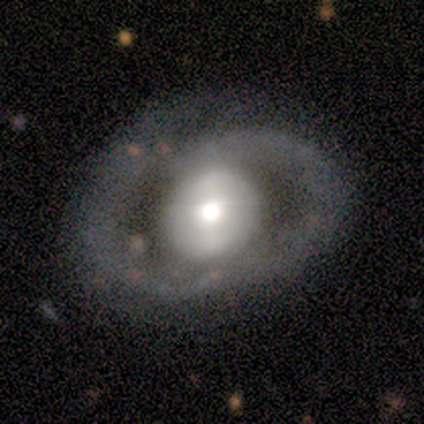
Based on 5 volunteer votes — Q: Smooth or featured?
A: featured or disk (80%); runner-up: smooth (20%)
Q: Edge-on disk?
A: no (100%)
Q: Bar?
A: no (75%); runner-up: strong (25%)
Q: Spiral arms?
A: yes (75%); runner-up: no (25%)
Q: Spiral winding?
A: tight (33%); tied with: medium (33%); loose (33%)
Q: Spiral arm count?
A: 2 (67%); runner-up: can't tell (33%)
Q: Bulge size?
A: moderate (75%); runner-up: small (25%)
Q: Merging?
A: none (40%); tied with: major disturbance (40%)